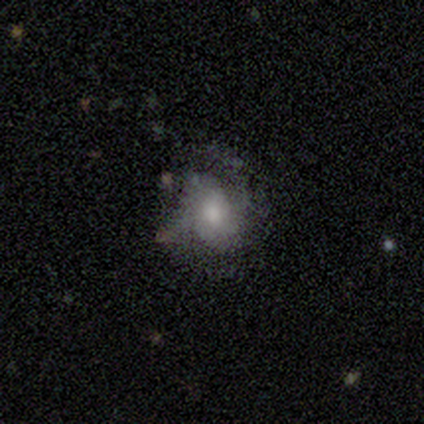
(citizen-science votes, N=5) Smooth or featured: featured or disk — 60% (smooth — 40%)
Edge-on disk: no — 100%
Bar: no — 67% (weak — 33%)
Spiral arms: no — 67% (yes — 33%)
Bulge size: moderate — 67% (large — 33%)
Merging: major disturbance — 40% (tied with merger — 40%)